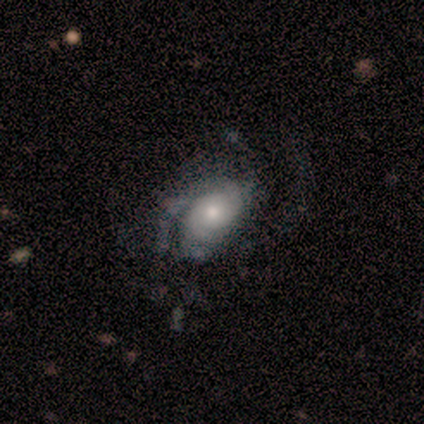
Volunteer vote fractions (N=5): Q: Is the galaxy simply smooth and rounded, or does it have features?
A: featured or disk — 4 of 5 (80%).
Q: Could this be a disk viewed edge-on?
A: no — 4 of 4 (100%).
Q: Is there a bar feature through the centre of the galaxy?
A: no — 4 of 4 (100%).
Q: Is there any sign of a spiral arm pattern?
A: yes — 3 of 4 (75%).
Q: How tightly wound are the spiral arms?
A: tight — 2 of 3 (67%).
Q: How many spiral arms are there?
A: can't tell — 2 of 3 (67%).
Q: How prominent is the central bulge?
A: moderate — 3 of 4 (75%).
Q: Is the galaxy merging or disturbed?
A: major disturbance — 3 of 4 (75%).